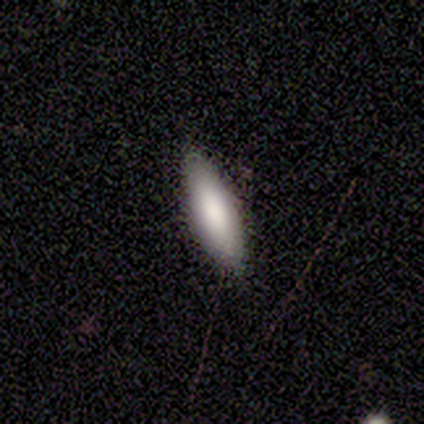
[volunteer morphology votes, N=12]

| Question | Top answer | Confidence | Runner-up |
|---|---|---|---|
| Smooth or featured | smooth | 92% | featured or disk (8%) |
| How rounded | in between | 55% | cigar-shaped (45%) |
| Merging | none | 75% | minor disturbance (17%) |